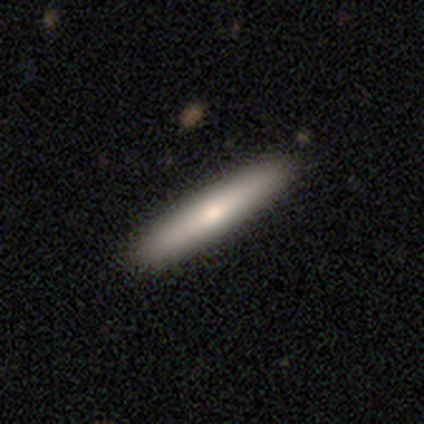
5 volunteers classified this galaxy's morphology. Overall: smooth (60%; featured or disk 40%). How rounded: cigar-shaped (100%). Merging: none (100%).